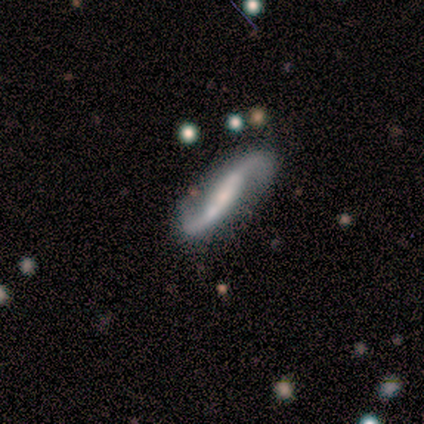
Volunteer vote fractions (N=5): Smooth or featured?
  - featured or disk: 100% *
  - smooth: 0%
  - star or artifact: 0%
Edge-on disk?
  - no: 80% *
  - yes: 20%
Bar?
  - weak: 100% *
  - strong: 0%
  - no: 0%
Spiral arms?
  - yes: 100% *
  - no: 0%
Spiral winding?
  - loose: 100% *
  - tight: 0%
  - medium: 0%
Spiral arm count?
  - 2: 100% *
  - 1: 0%
  - 3: 0%
  - 4: 0%
  - more than 4: 0%
  - can't tell: 0%
Bulge size?
  - small: 50% *
  - large: 25%
  - moderate: 25%
  - dominant: 0%
  - none: 0%
Merging?
  - none: 100% *
  - minor disturbance: 0%
  - major disturbance: 0%
  - merger: 0%